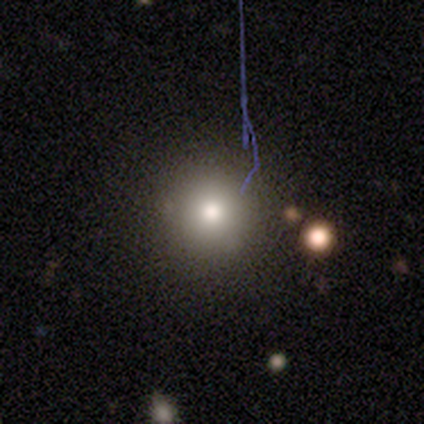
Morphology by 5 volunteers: This appears to be a featured or disk galaxy (40%, tied with star or artifact) with no bar (100%), no spiral arms (100%) and a moderate central bulge (100%). Merging: none (100%).